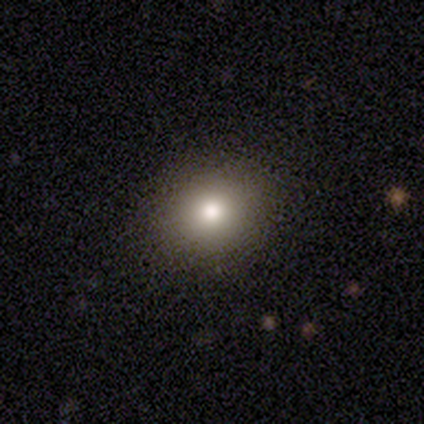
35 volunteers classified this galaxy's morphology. Smooth or featured? 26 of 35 (74%) said smooth. How rounded? 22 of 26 (85%) said round. Merging? 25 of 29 (86%) said none.